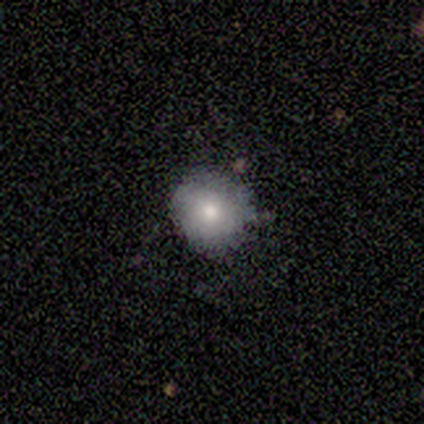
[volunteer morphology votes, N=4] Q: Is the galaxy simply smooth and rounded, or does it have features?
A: smooth — 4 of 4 (100%).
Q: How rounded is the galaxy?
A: round — 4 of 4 (100%).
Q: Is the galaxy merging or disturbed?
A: none — 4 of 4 (100%).